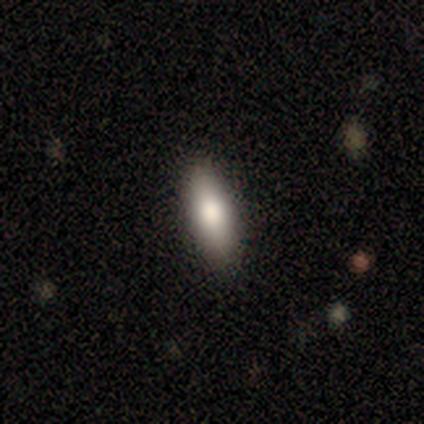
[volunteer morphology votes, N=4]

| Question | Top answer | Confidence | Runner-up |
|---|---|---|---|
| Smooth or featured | smooth | 75% | featured or disk (25%) |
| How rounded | in between | 67% | cigar-shaped (33%) |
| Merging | none | 75% | minor disturbance (25%) |